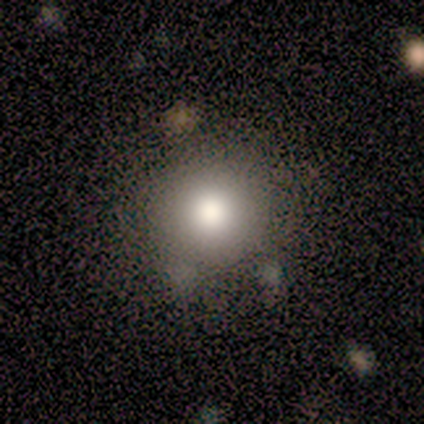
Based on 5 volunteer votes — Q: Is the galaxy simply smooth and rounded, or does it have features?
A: smooth — 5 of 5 (100%).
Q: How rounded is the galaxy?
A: round — 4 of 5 (80%).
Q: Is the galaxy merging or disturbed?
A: none — 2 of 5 (40%, tied with minor disturbance).